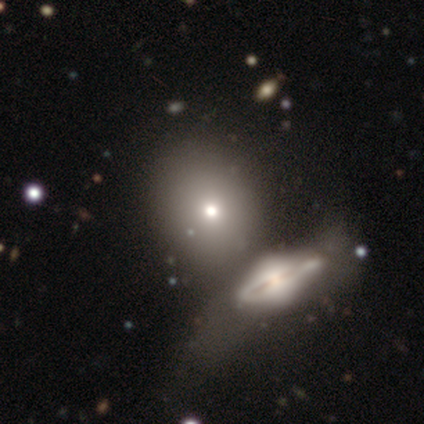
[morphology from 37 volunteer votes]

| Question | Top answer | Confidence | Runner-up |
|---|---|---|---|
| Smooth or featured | smooth | 62% | featured or disk (35%) |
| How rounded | round | 57% | in between (43%) |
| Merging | merger | 56% | — |